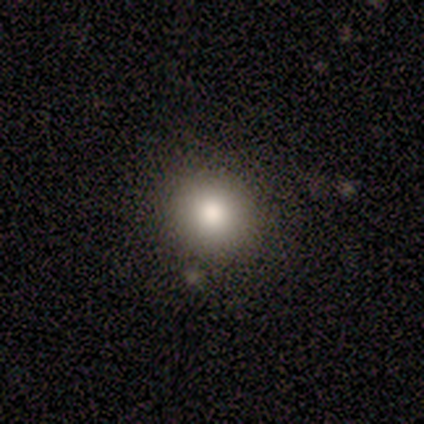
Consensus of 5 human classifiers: smooth 80%, star or artifact 20%, featured or disk 0%. Down the decision tree: how rounded — round (75%); merging — none (100%).